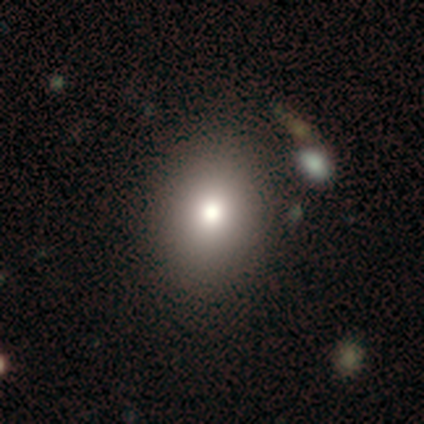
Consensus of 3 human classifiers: Smooth or featured? 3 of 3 (100%) said smooth. How rounded? 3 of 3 (100%) said in between. Merging? 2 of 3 (67%) said none.